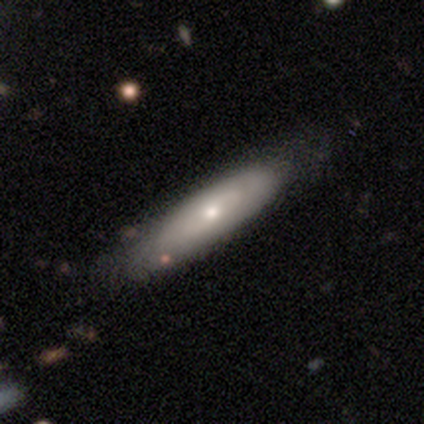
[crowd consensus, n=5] Smooth or featured?
  - smooth: 60% *
  - featured or disk: 40%
  - star or artifact: 0%
How rounded?
  - in between: 67% *
  - cigar-shaped: 33%
  - round: 0%
Merging?
  - none: 100% *
  - minor disturbance: 0%
  - major disturbance: 0%
  - merger: 0%